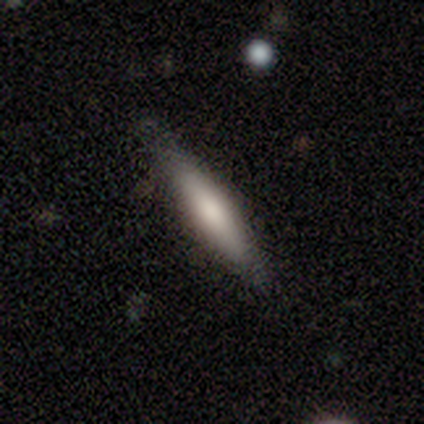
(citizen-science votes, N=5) Smooth or featured? 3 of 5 (60%) said smooth. How rounded? 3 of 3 (100%) said cigar-shaped. Merging? 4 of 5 (80%) said none.